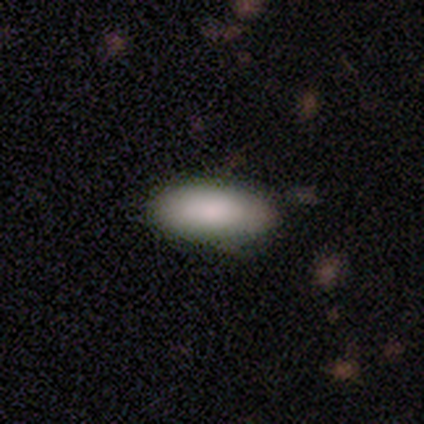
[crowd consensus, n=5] Smooth or featured: smooth — 100%
How rounded: in between — 100%
Merging: none — 60% (minor disturbance — 40%)